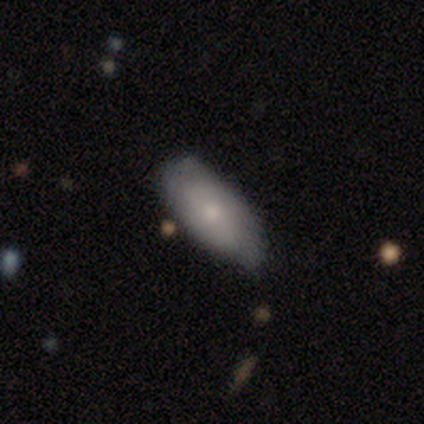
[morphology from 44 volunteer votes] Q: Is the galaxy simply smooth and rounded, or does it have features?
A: smooth — 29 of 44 (66%).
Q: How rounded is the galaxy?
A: in between — 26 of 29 (90%).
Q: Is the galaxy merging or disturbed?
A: none — 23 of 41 (56%).